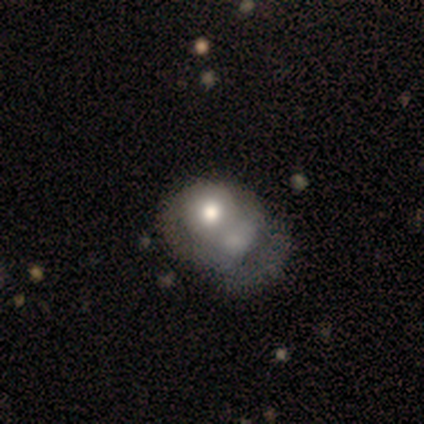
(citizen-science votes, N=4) Q: Smooth or featured?
A: smooth (75%); runner-up: featured or disk (25%)
Q: How rounded?
A: in between (67%); runner-up: round (33%)
Q: Merging?
A: merger (75%); runner-up: major disturbance (25%)